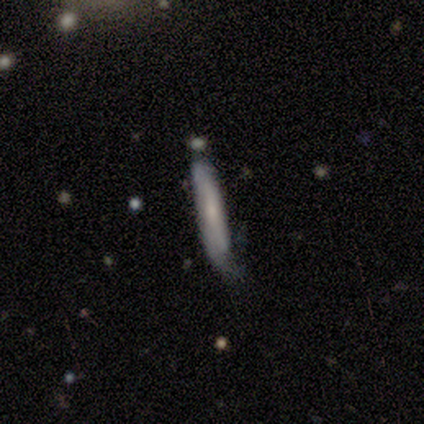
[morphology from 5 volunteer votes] Smooth or featured: smooth — 80% (featured or disk — 20%)
How rounded: cigar-shaped — 100%
Merging: none — 40% (tied with minor disturbance — 40%)